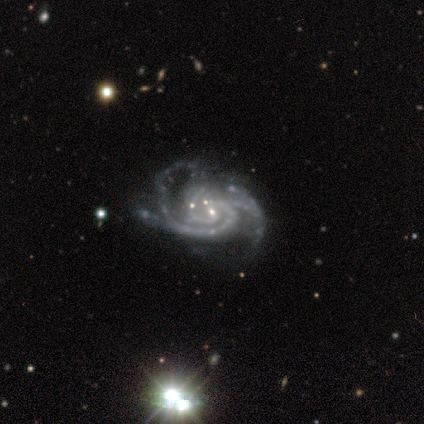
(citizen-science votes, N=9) Smooth or featured?
  - featured or disk: 100% *
  - smooth: 0%
  - star or artifact: 0%
Edge-on disk?
  - no: 100% *
  - yes: 0%
Bar?
  - no: 56% *
  - strong: 33%
  - weak: 11%
Spiral arms?
  - yes: 100% *
  - no: 0%
Spiral winding?
  - medium: 56% *
  - tight: 44%
  - loose: 0%
Spiral arm count?
  - 3: 67% *
  - 2: 22%
  - can't tell: 11%
  - 1: 0%
  - 4: 0%
  - more than 4: 0%
Bulge size?
  - small: 89% *
  - moderate: 11%
  - dominant: 0%
  - large: 0%
  - none: 0%
Merging?
  - none: 56% *
  - minor disturbance: 33%
  - major disturbance: 11%
  - merger: 0%